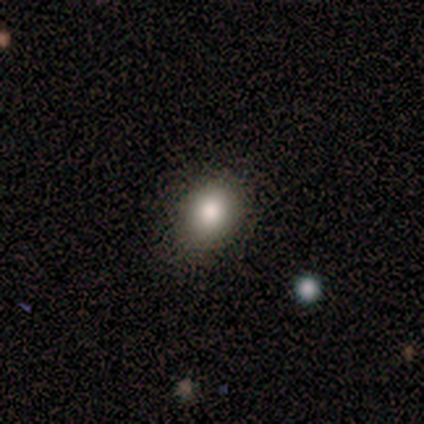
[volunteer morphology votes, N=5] Smooth or featured? 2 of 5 (40%, tied with star or artifact) said smooth. How rounded? 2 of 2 (100%) said in between. Merging? 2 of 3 (67%) said none.